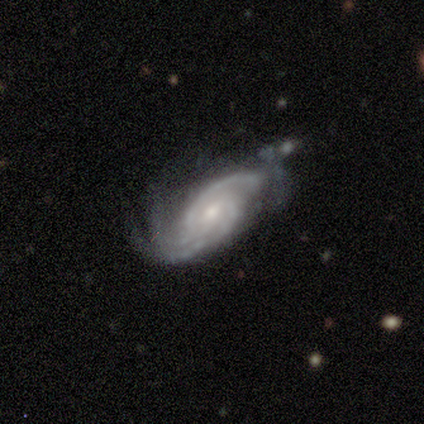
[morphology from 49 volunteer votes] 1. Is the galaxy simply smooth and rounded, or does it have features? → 90% featured or disk, 6% star or artifact, 4% smooth.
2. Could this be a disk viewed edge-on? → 100% no, 0% yes.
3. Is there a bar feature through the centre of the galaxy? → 50% no, 45% weak, 5% strong.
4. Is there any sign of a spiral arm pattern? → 100% yes, 0% no.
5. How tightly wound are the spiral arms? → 48% tight, 41% medium, 11% loose.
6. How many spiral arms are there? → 57% 3, 18% 2, 16% can't tell, 9% 4, 0% 1, 0% more than 4.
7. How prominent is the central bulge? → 61% moderate, 36% small, 2% large, 0% dominant, 0% none.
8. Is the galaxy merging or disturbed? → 41% none, 28% minor disturbance, 20% major disturbance, 11% merger.